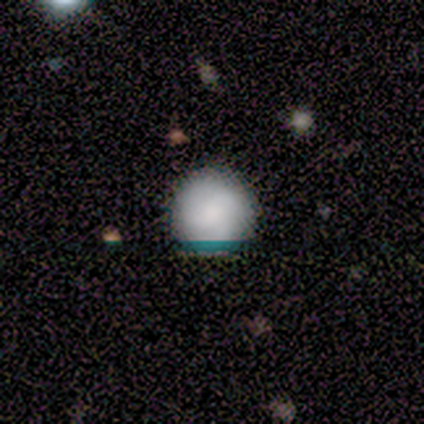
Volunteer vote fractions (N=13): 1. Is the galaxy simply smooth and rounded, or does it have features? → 85% smooth, 8% featured or disk, 8% star or artifact.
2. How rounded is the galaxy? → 100% round, 0% in between, 0% cigar-shaped.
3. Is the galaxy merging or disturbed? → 92% none, 8% merger, 0% minor disturbance, 0% major disturbance.